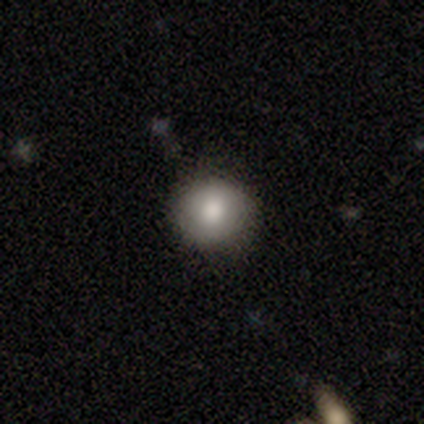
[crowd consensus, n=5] Smooth or featured: smooth — 80% (star or artifact — 20%)
How rounded: round — 100%
Merging: none — 75% (minor disturbance — 25%)